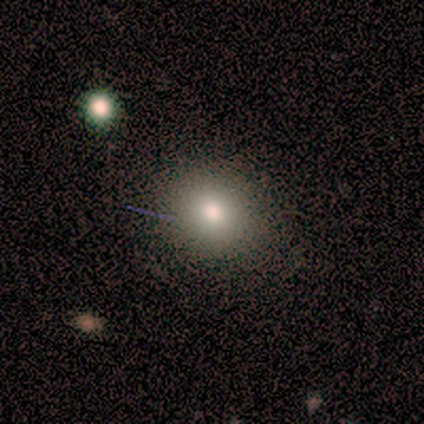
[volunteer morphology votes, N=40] This is likely a smooth galaxy (72%). How rounded: likely round (72%). Merging: clearly none (89%).